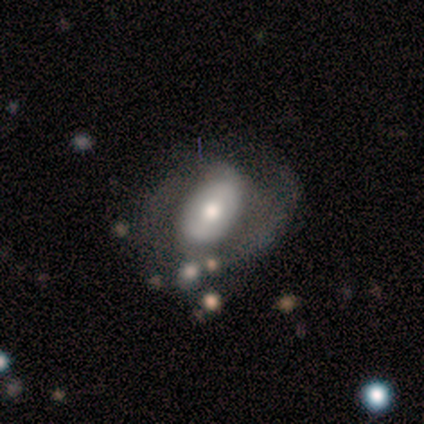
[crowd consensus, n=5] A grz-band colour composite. It shows a featured or disk galaxy (80%) with no bar (100%), no spiral arms (100%) and a moderate central bulge (67%). Merging: none (50%).